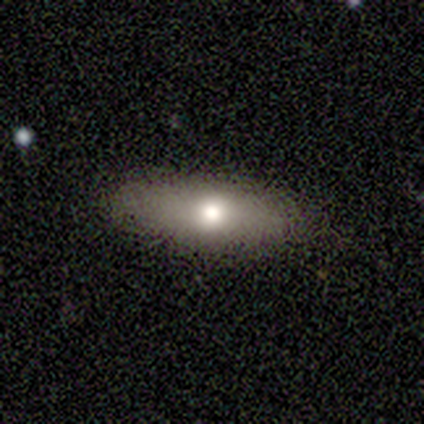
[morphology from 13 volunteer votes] Smooth or featured? 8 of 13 (62%) said smooth. How rounded? 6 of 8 (75%) said in between. Merging? 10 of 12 (83%) said none.